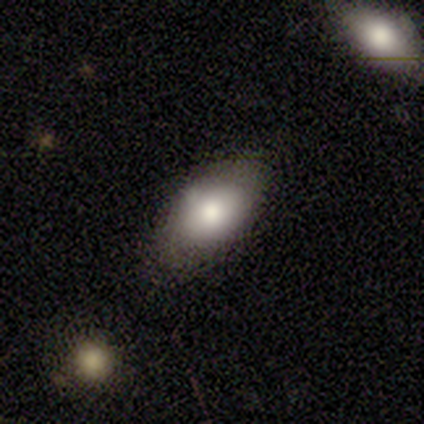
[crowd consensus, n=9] smooth 89%, featured or disk 11%, star or artifact 0%. Down the decision tree: how rounded — in between (100%); merging — none (89%).